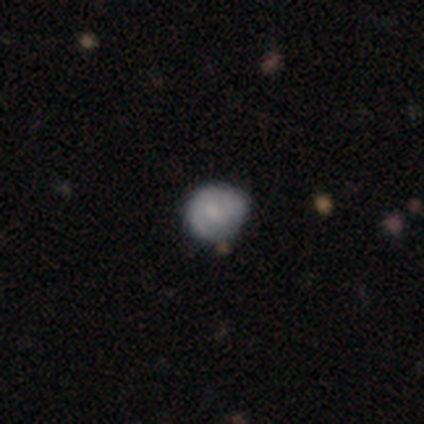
smooth_or_featured: smooth (p=0.60) [alt: featured or disk p=0.40]
how_rounded: round (p=0.67) [alt: in between p=0.33]
merging: minor disturbance (p=0.80) [alt: none p=0.20]